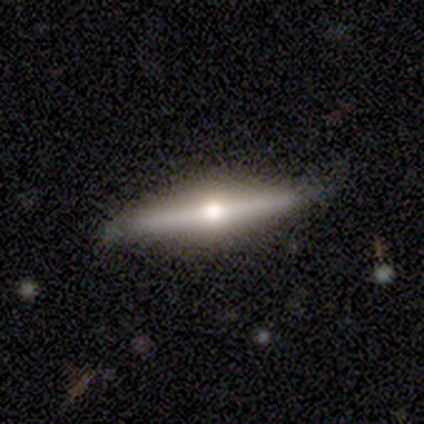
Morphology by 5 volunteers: type=featured or disk (80%); edge-on=yes (100%); edge-on bulge=rounded (100%); merging=none (80%).